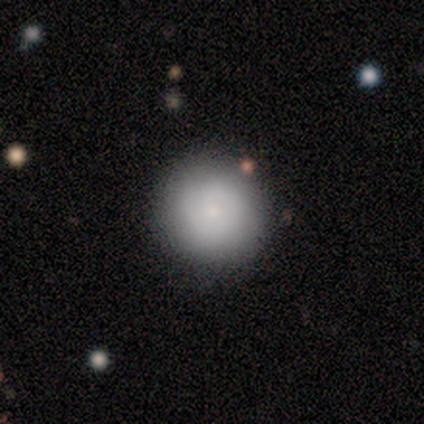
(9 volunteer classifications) Smooth or featured: smooth — 89% (featured or disk — 11%)
How rounded: round — 100%
Merging: none — 78% (minor disturbance — 22%)